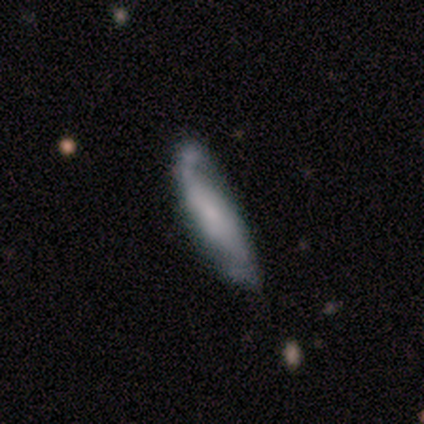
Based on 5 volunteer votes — This appears to be a smooth galaxy with no disk features (60%) that is cigar-shaped (67%). Merging: none (60%).